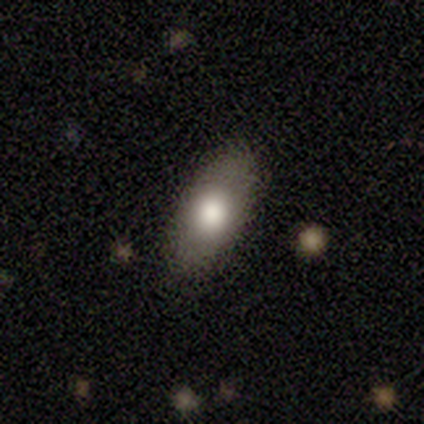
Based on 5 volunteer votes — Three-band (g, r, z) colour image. It shows a smooth galaxy with no disk features (80%) that is in between round and cigar-shaped (100%). Merging: none (60%).